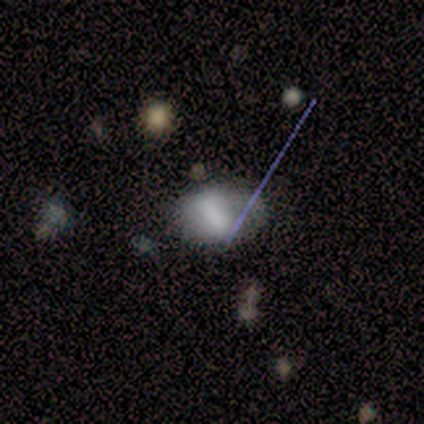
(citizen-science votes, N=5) featured or disk 40% (tied), star or artifact 40% (tied), smooth 20%. Down the decision tree: edge-on disk — no (100%); bar — strong (100%); spiral arms — yes (50%, tied with no); spiral arm count — 1 (100%); spiral winding — medium (100%); bulge size — none (100%); merging — none (67%).